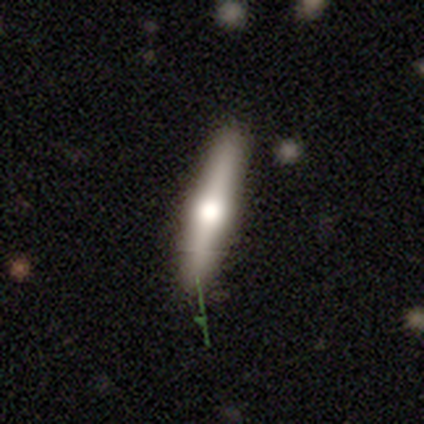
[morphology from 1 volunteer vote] smooth-or-featured: featured or disk: 100% | smooth: 0% | star or artifact: 0%
  disk-edge-on: yes: 100% | no: 0%
    edge-on-bulge: rounded: 100% | boxy: 0% | none: 0%
  merging: none: 100% | minor disturbance: 0% | major disturbance: 0% | merger: 0%